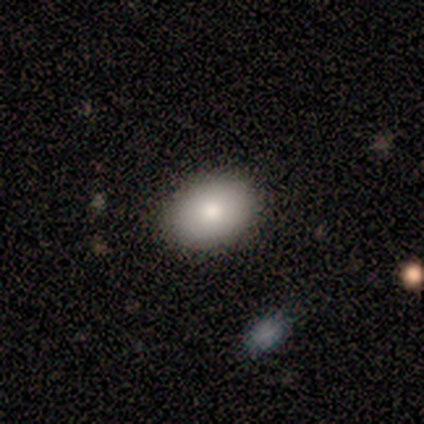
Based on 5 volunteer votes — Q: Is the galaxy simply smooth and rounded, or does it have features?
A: smooth — 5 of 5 (100%).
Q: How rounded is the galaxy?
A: in between — 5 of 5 (100%).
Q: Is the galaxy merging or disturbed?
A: none — 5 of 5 (100%).